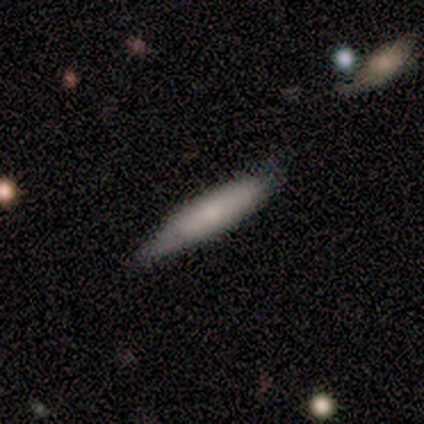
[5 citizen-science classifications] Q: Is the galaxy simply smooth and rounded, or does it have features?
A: smooth — 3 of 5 (60%).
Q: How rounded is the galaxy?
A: cigar-shaped — 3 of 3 (100%).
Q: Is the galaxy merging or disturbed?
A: none — 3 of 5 (60%).